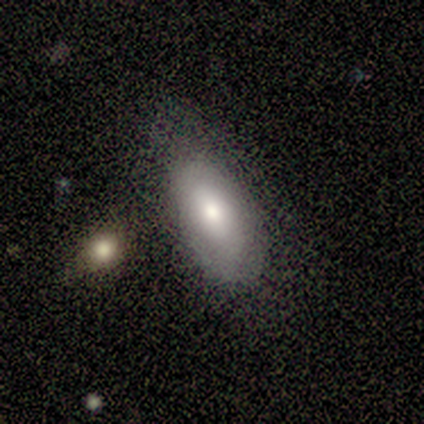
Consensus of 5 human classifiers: Smooth or featured: smooth — 40% (tied with featured or disk — 40%)
How rounded: in between — 100%
Merging: none — 50% (tied with minor disturbance — 50%)